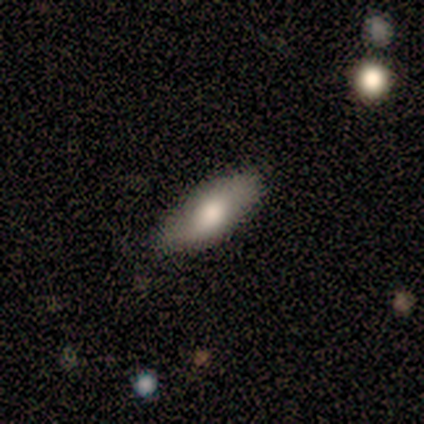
smooth-or-featured: smooth: 71% | featured or disk: 29% | star or artifact: 0%
  how-rounded: in between: 100% | round: 0% | cigar-shaped: 0%
  merging: none: 71% | minor disturbance: 29% | major disturbance: 0% | merger: 0%